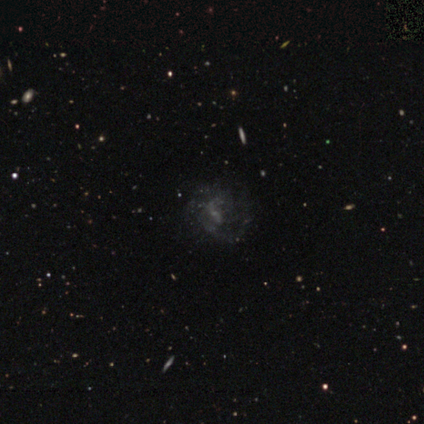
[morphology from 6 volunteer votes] featured or disk 83%, star or artifact 17%, smooth 0%. Down the decision tree: edge-on disk — no (100%); bar — weak (60%); spiral arms — yes (60%); spiral arm count — 2 (100%); spiral winding — loose (67%); bulge size — small (80%); merging — major disturbance (60%).